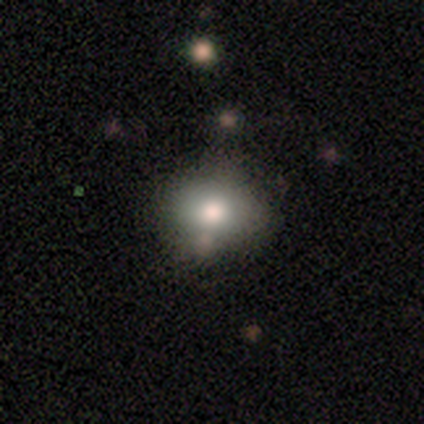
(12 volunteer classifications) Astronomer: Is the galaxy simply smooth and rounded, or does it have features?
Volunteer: smooth — 100%.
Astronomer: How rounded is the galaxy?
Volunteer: in between — 58% (runner-up: round, 42%).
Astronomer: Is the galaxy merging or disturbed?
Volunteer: none — 75%.